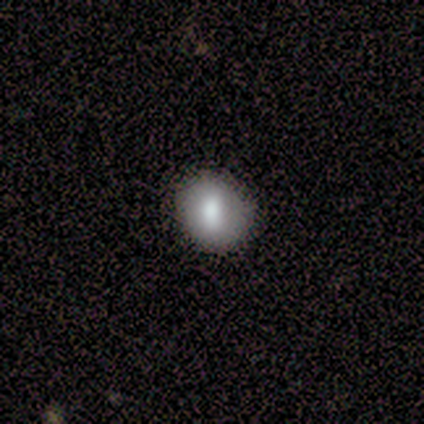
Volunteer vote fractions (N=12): smooth-or-featured: smooth: 67% | featured or disk: 17% | star or artifact: 17%
  how-rounded: in between: 62% | round: 38% | cigar-shaped: 0%
  merging: none: 80% | minor disturbance: 10% | major disturbance: 10% | merger: 0%